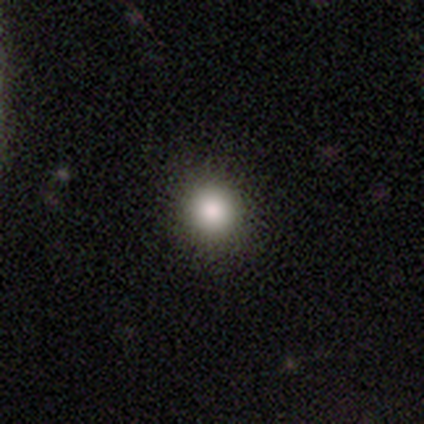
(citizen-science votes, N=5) Q: Smooth or featured?
A: smooth (80%); runner-up: star or artifact (20%)
Q: How rounded?
A: round (100%)
Q: Merging?
A: none (100%)